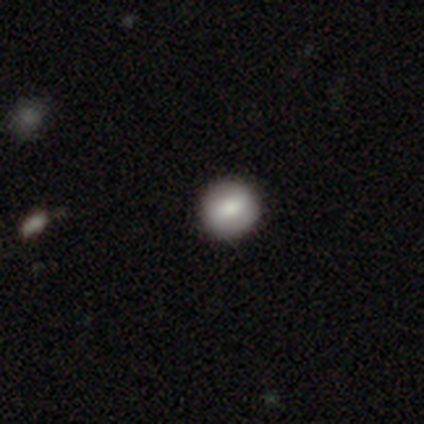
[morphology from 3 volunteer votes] smooth-or-featured: featured or disk: 67% | smooth: 33% | star or artifact: 0%
  disk-edge-on: yes: 50% (tied) | no: 50% (tied)
    edge-on-bulge: rounded: 100% | boxy: 0% | none: 0%
  merging: none: 100% | minor disturbance: 0% | major disturbance: 0% | merger: 0%